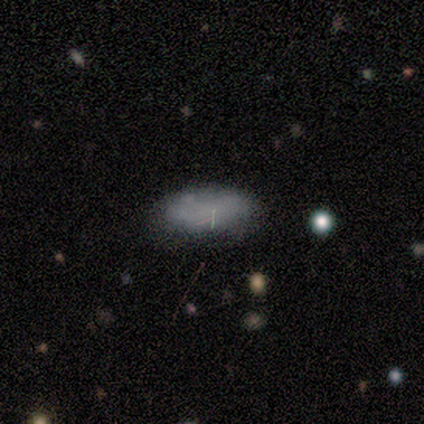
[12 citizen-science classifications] smooth_or_featured: smooth (p=0.83) [alt: star or artifact p=0.17]
how_rounded: in between (p=0.90) [alt: cigar-shaped p=0.10]
merging: none (p=0.90) [alt: minor disturbance p=0.10]